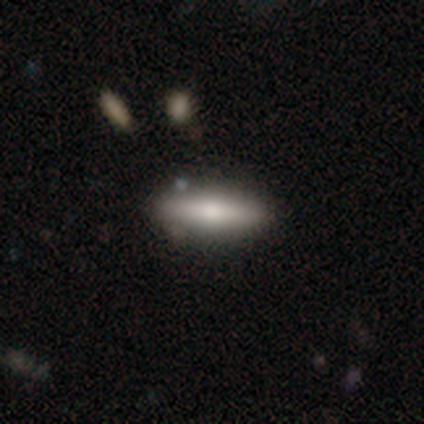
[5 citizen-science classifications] This appears to be a smooth galaxy with no disk features (80%) that is cigar-shaped (75%). Merging: none (100%).